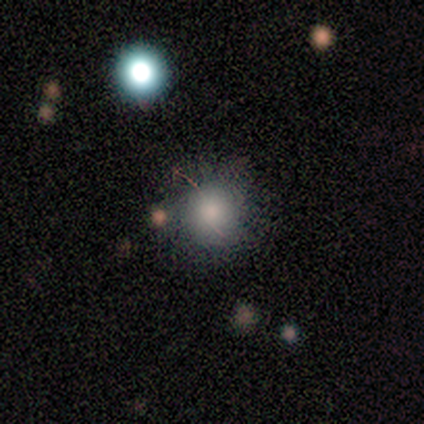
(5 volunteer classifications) This appears to be a smooth galaxy with no disk features (100%) that is round (100%). Merging: none (80%).